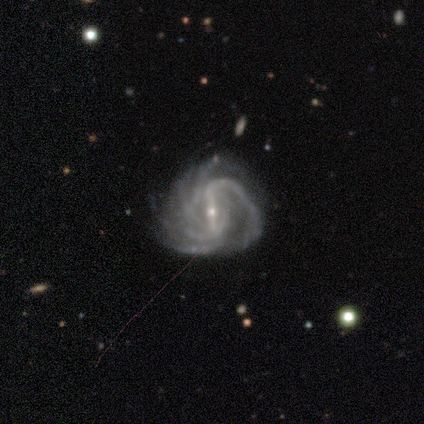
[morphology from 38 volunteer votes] Smooth or featured: featured or disk — 97% (smooth — 3%)
Edge-on disk: no — 100%
Bar: strong — 76% (weak — 24%)
Spiral arms: yes — 100%
Spiral winding: medium — 57% (tight — 24%)
Spiral arm count: more than 4 — 27% (tied with can't tell — 27%)
Bulge size: small — 73% (moderate — 24%)
Merging: none — 32% (minor disturbance — 29%)